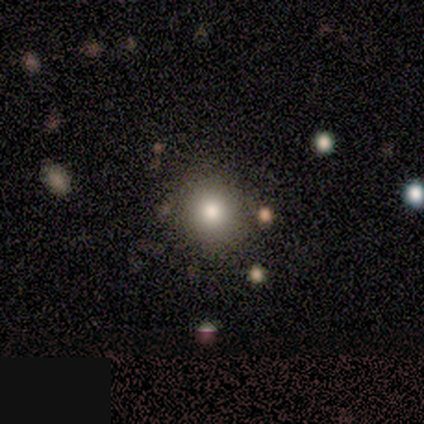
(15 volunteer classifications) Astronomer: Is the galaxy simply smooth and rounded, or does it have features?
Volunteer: smooth — 80%.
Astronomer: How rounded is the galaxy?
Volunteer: round — 83%.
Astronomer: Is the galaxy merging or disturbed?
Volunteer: none — 93%.